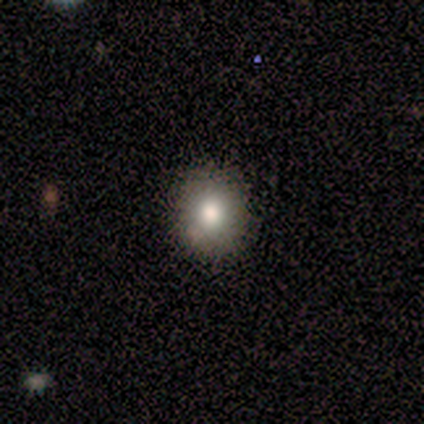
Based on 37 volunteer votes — Smooth or featured: smooth — 65% (star or artifact — 19%)
How rounded: round — 62% (in between — 33%)
Merging: none — 87% (minor disturbance — 13%)